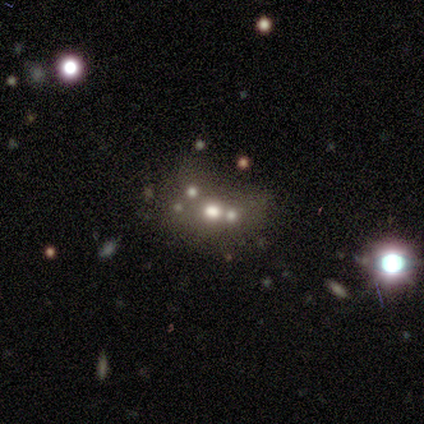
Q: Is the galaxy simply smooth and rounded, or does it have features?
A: featured or disk — 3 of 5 (60%).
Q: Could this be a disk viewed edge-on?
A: no — 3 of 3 (100%).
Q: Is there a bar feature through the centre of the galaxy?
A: no — 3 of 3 (100%).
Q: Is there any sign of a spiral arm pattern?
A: no — 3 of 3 (100%).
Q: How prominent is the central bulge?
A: large — 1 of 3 (33%, tied with moderate and small).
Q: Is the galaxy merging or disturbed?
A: merger — 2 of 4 (50%).